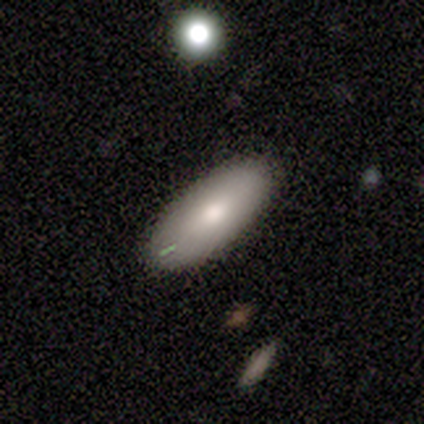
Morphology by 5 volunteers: This appears to be a smooth galaxy with no disk features (100%) that is in between round and cigar-shaped (100%). Merging: none (80%).